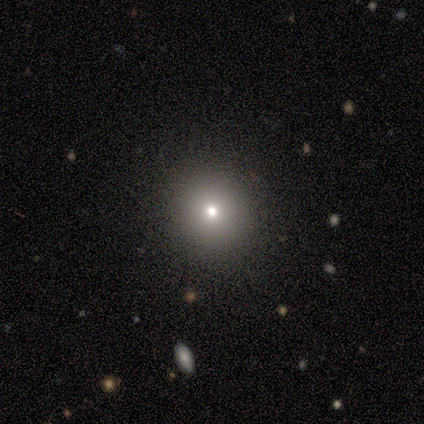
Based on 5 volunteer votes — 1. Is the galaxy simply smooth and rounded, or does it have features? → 60% smooth, 40% star or artifact, 0% featured or disk.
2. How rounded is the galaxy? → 100% round, 0% in between, 0% cigar-shaped.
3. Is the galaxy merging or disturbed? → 100% none, 0% minor disturbance, 0% major disturbance, 0% merger.